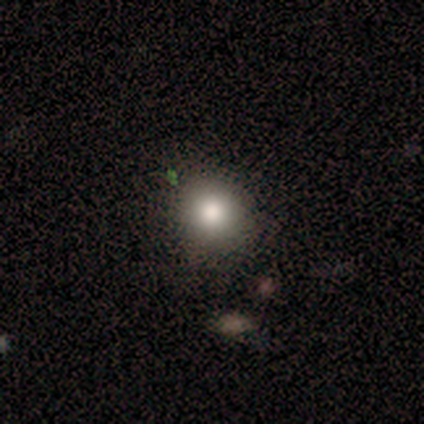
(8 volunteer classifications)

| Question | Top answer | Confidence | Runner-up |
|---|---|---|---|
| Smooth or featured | smooth | 88% | star or artifact (12%) |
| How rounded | round | 86% | in between (14%) |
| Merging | none | 71% | minor disturbance (14%) |